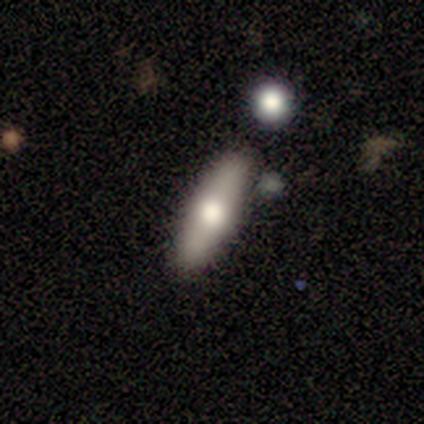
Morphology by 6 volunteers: This appears to be a star or artifact, not a galaxy (50%).